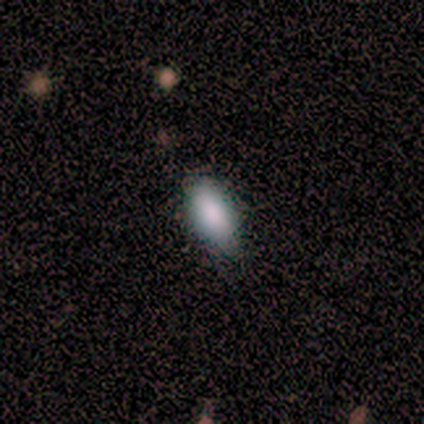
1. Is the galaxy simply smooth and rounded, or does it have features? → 71% smooth, 14% featured or disk, 14% star or artifact.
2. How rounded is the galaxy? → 100% in between, 0% round, 0% cigar-shaped.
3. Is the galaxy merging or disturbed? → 50% minor disturbance, 33% none, 17% major disturbance, 0% merger.